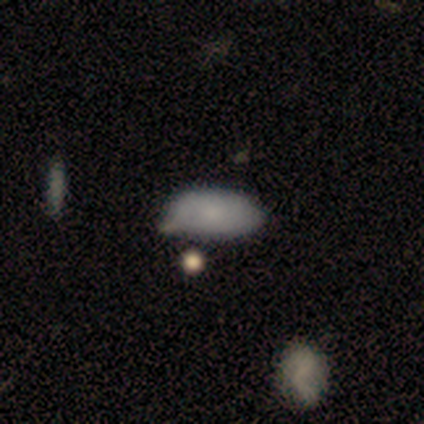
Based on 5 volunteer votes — Smooth or featured? smooth (100%)
How rounded? in between (100%)
Merging? minor disturbance (60%)